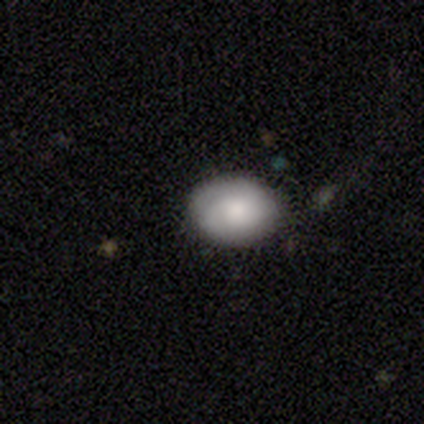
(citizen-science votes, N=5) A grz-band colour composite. It shows a smooth galaxy with no disk features (100%) that is in between round and cigar-shaped (100%). Merging: none (80%).